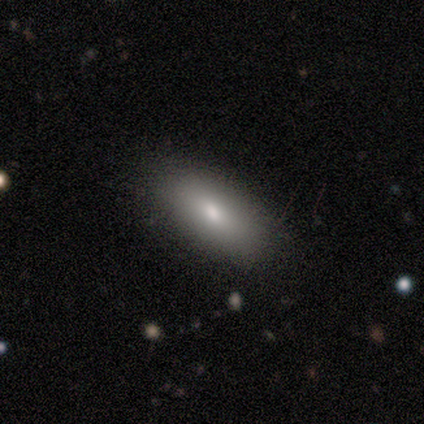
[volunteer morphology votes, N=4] A smooth galaxy with no disk features (75%) that is in between round and cigar-shaped (100%). Merging: none (100%).